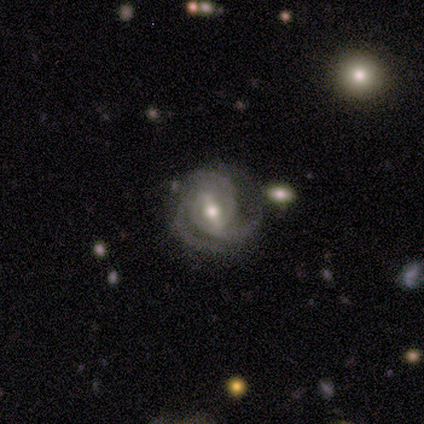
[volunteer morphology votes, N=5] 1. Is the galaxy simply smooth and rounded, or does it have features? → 100% featured or disk, 0% smooth, 0% star or artifact.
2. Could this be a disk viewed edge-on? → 100% no, 0% yes.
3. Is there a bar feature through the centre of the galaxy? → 80% weak, 20% strong, 0% no.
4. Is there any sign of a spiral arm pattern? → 100% yes, 0% no.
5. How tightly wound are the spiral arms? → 80% tight, 20% medium, 0% loose.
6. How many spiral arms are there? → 60% 3, 40% can't tell, 0% 1, 0% 2, 0% 4, 0% more than 4.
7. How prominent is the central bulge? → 100% moderate, 0% dominant, 0% large, 0% small, 0% none.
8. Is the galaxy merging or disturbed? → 100% none, 0% minor disturbance, 0% major disturbance, 0% merger.